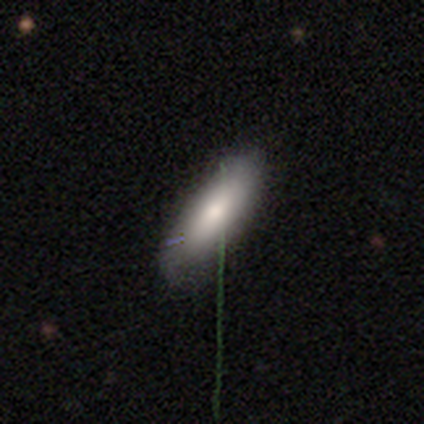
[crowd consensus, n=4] Overall: smooth (50%, tied with featured or disk). How rounded: in between (100%). Merging: none (100%).